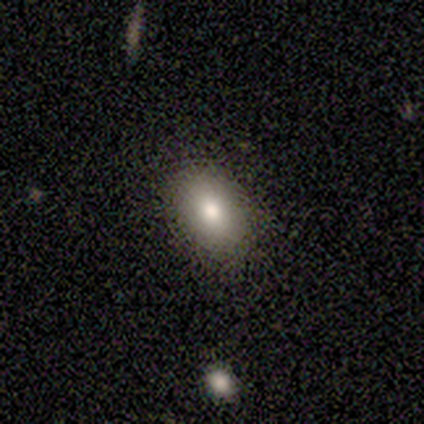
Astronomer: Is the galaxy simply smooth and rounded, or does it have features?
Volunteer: smooth — 60%.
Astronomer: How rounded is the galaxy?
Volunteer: in between — 100%.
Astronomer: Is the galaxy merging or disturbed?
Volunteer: none — 100%.